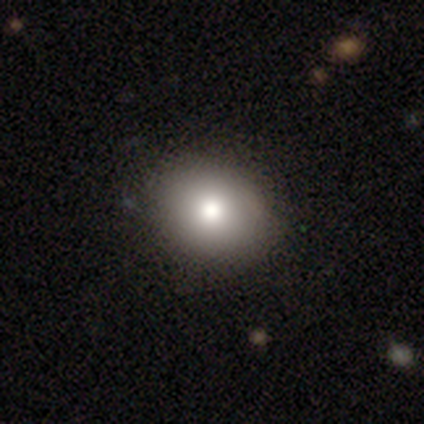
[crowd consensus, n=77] Smooth or featured? 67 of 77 (87%) said smooth. How rounded? 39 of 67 (58%) said round. Merging? 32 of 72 (44%) said none.